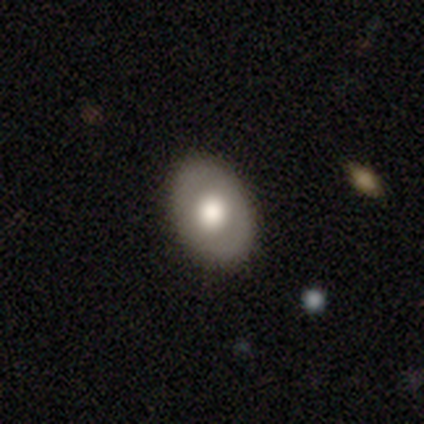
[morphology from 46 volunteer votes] smooth 65%, featured or disk 33%, star or artifact 2%. Down the decision tree: how rounded — in between (83%); merging — none (91%).